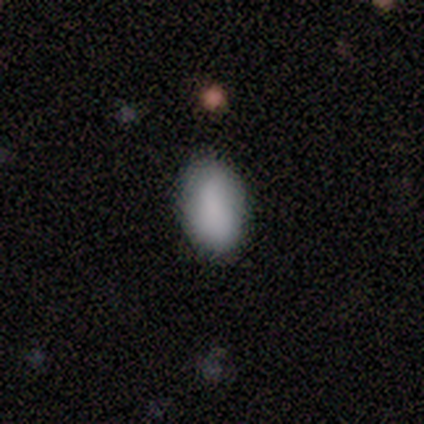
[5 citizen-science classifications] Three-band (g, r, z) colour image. It shows a smooth galaxy with no disk features (100%) that is in between round and cigar-shaped (100%). Merging: none (80%).